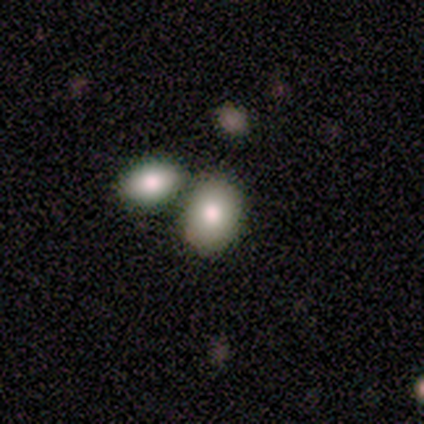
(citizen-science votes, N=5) A smooth galaxy with no disk features (80%) that is in between round and cigar-shaped (75%). Merging: merger (80%).